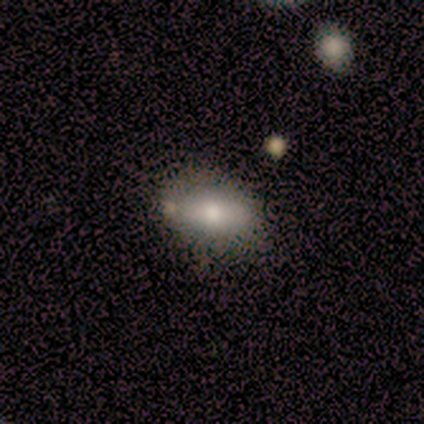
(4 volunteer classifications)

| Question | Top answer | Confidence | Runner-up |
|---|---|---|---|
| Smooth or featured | smooth | 75% | featured or disk (25%) |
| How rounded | in between | 67% | round (33%) |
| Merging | none | 75% | minor disturbance (25%) |